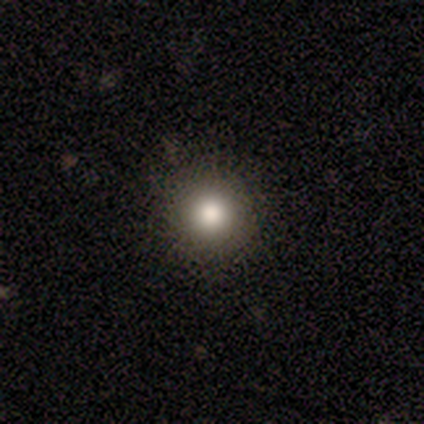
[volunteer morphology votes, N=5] Smooth or featured? 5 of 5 (100%) said smooth. How rounded? 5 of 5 (100%) said round. Merging? 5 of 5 (100%) said none.